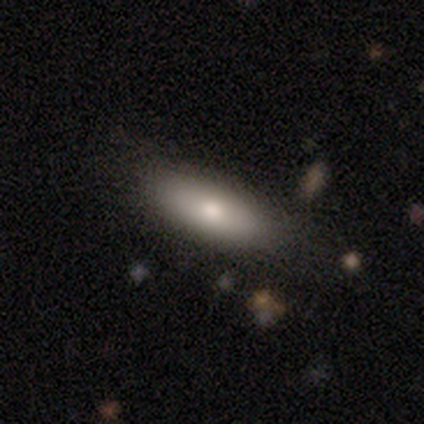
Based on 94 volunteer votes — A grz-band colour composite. It shows a smooth galaxy with no disk features (76%) that is in between round and cigar-shaped (66%). Merging: none (83%).